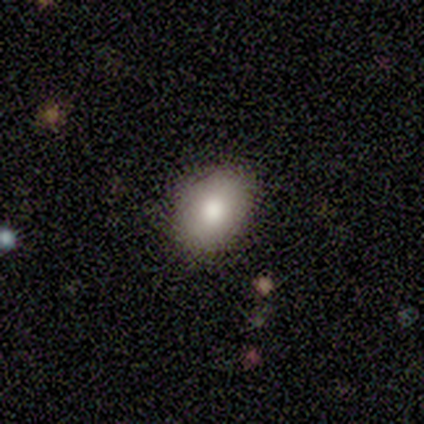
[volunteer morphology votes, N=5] Smooth or featured? 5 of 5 (100%) said smooth. How rounded? 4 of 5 (80%) said in between. Merging? 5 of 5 (100%) said none.